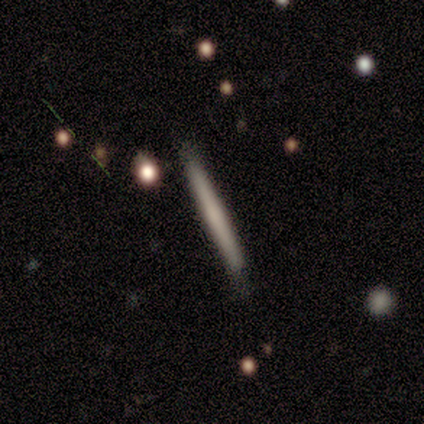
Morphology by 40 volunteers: Smooth or featured?
  - smooth: 68% *
  - featured or disk: 30%
  - star or artifact: 2%
How rounded?
  - cigar-shaped: 100% *
  - round: 0%
  - in between: 0%
Merging?
  - none: 82% *
  - minor disturbance: 18%
  - major disturbance: 0%
  - merger: 0%